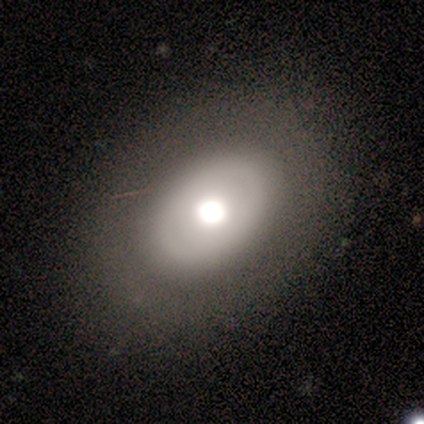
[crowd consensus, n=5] Smooth or featured: featured or disk — 60% (smooth — 20%)
Edge-on disk: no — 67% (yes — 33%)
Bar: no — 100%
Spiral arms: no — 100%
Bulge size: moderate — 100%
Merging: none — 75% (minor disturbance — 25%)